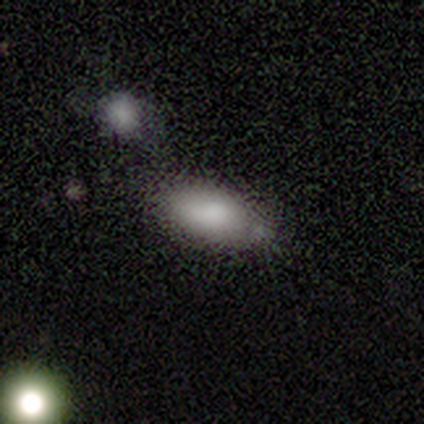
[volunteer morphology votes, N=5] This is clearly a smooth galaxy (80%). How rounded: clearly in between (100%). Merging: possibly minor disturbance (50%).